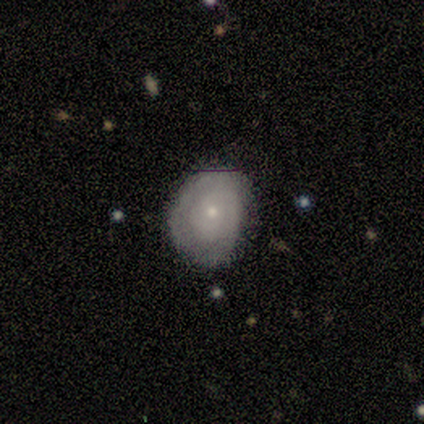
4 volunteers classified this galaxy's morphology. Overall: smooth (50%, tied with featured or disk). How rounded: round (50%, tied with in between). Merging: none (75%).